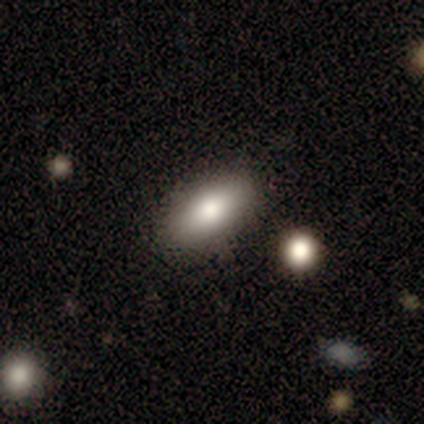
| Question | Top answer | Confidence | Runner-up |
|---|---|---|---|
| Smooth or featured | smooth | 100% | — |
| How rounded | in between | 60% | cigar-shaped (40%) |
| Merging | none | 100% | — |